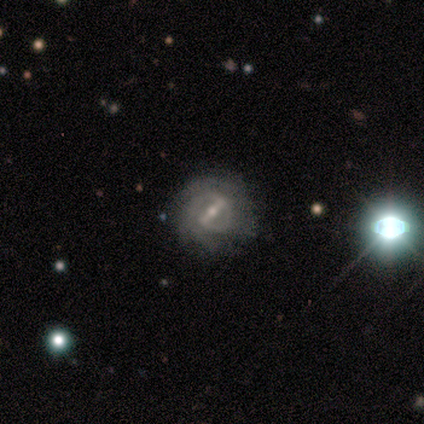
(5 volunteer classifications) Smooth or featured? 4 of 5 (80%) said featured or disk. Edge-on disk? 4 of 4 (100%) said no. Bar? 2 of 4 (50%, tied with weak) said strong. Spiral arms? 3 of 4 (75%) said yes. Spiral winding? 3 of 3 (100%) said tight. Spiral arm count? 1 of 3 (33%, tied with 3 and can't tell) said 2. Bulge size? 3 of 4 (75%) said small. Merging? 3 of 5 (60%) said major disturbance.